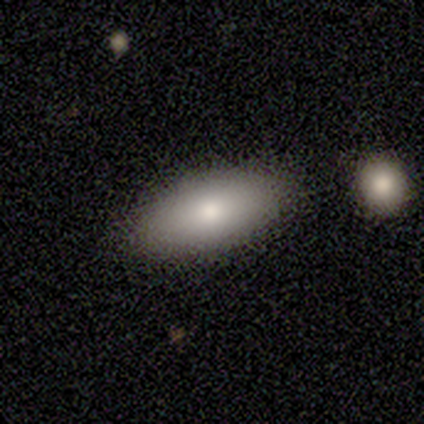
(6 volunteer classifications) A smooth galaxy with no disk features (83%) that is in between round and cigar-shaped (80%). Merging: none (80%).